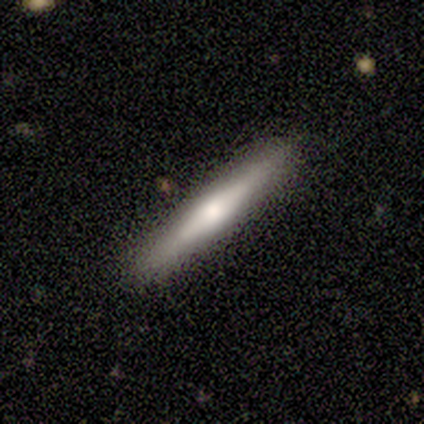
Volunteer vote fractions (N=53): Volunteers were most divided on "smooth or featured": featured or disk: 57%, smooth: 38%, star or artifact: 6%. More confident: edge-on disk — yes (90%); edge-on bulge — rounded (89%); merging — none (86%).